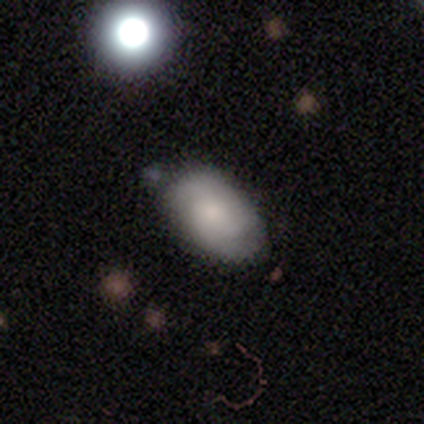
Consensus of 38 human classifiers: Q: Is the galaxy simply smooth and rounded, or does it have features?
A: smooth — 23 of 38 (61%).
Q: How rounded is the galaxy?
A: in between — 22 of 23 (96%).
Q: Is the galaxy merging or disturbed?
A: none — 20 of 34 (59%).